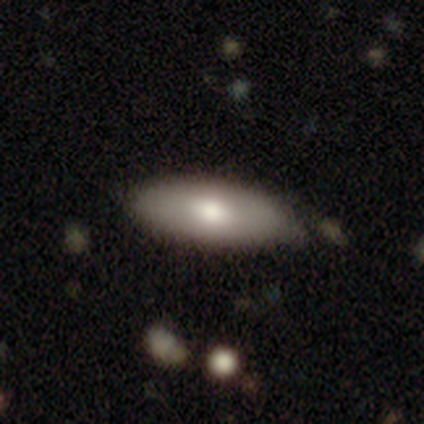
This appears to be a smooth galaxy with no disk features (70%) that is in between round and cigar-shaped (92%). Merging: none (67%).